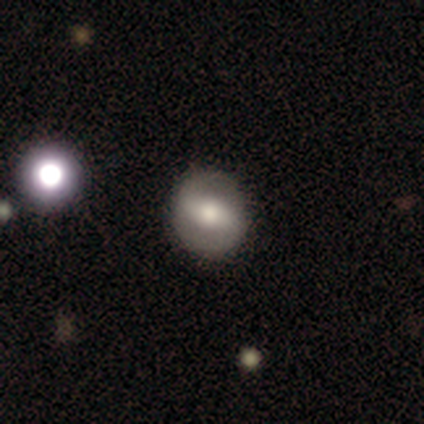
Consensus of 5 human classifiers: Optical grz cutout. It shows a featured or disk galaxy (60%) with a strong bar (100%), 2 (100%) tight (50%, tied with medium) spiral arms (67%) and a moderate central bulge (100%). Merging: none (100%).